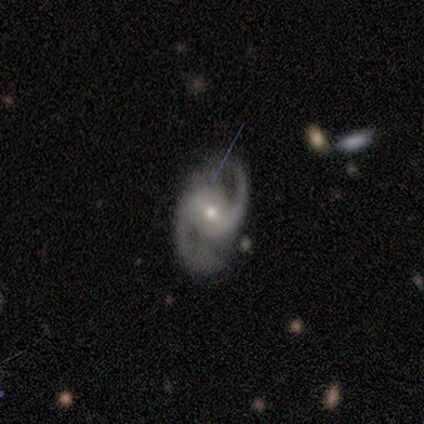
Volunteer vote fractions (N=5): A featured or disk galaxy (100%) with a strong bar (40%, tied with no), 2 (100%) tight (40%, tied with medium) spiral arms (100%) and a moderate central bulge (80%). Merging: none (100%).